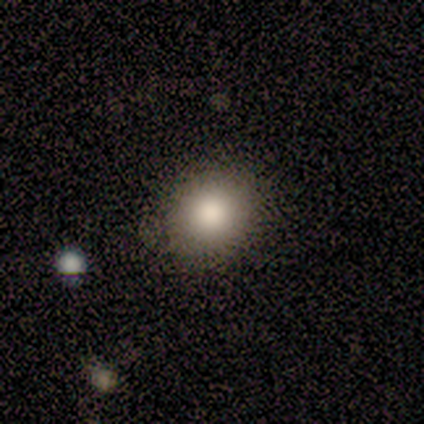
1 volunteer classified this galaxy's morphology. Overall: smooth (100%). How rounded: in between (100%). Merging: none (100%).